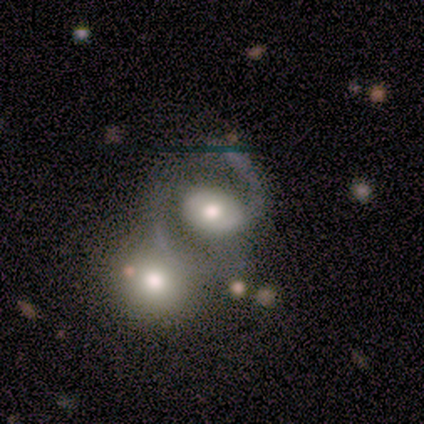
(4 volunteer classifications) Q: Smooth or featured?
A: featured or disk (75%); runner-up: smooth (25%)
Q: Edge-on disk?
A: no (100%)
Q: Bar?
A: weak (67%); runner-up: strong (33%)
Q: Spiral arms?
A: yes (100%)
Q: Spiral winding?
A: medium (100%)
Q: Spiral arm count?
A: 2 (100%)
Q: Bulge size?
A: moderate (67%); runner-up: large (33%)
Q: Merging?
A: merger (50%); runner-up: none (25%)